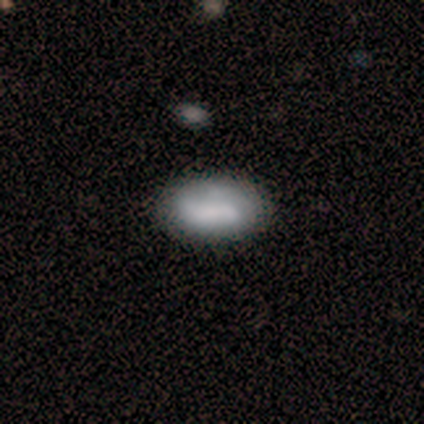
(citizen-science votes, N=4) featured or disk 75%, smooth 25%, star or artifact 0%. Down the decision tree: edge-on disk — no (67%); bar — no (100%); spiral arms — no (100%); bulge size — none (100%); merging — none (75%).